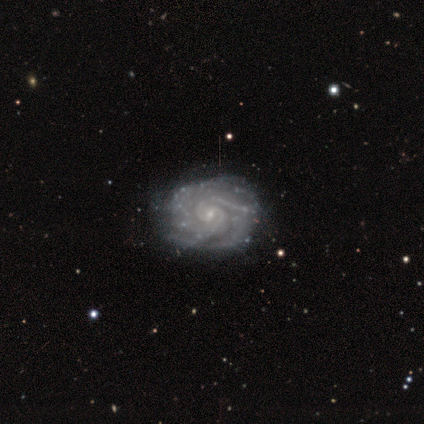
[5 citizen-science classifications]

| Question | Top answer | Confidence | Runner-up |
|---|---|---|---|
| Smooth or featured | featured or disk | 80% | star or artifact (20%) |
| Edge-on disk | no | 100% | — |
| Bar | weak | 75% | no (25%) |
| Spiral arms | yes | 100% | — |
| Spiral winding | tight | 75% | medium (25%) |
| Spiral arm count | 2 | 25% | tied: 3 (25%), 4 (25%), more than 4 (25%) |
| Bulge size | small | 100% | — |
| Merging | none | 100% | — |